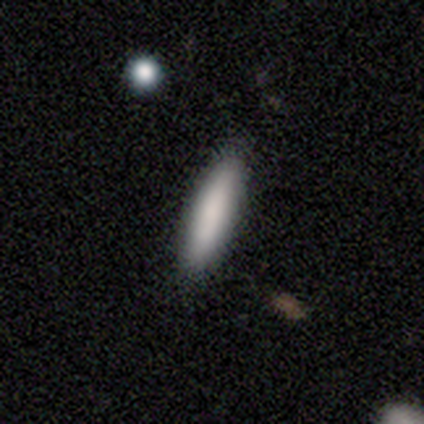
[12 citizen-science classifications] This is clearly a smooth galaxy (100%). How rounded: clearly cigar-shaped (100%). Merging: clearly none (100%).